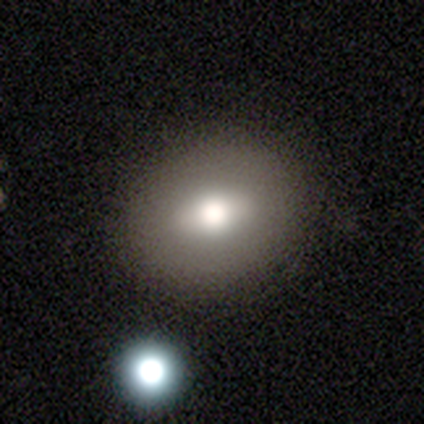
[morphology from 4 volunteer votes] smooth_or_featured: smooth (p=0.75) [alt: featured or disk p=0.25]
how_rounded: round (p=1.00)
merging: none (p=1.00)